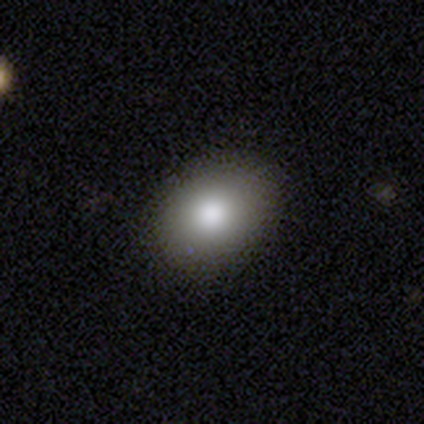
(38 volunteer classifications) smooth-or-featured: smooth: 87% | star or artifact: 8% | featured or disk: 5%
  how-rounded: in between: 61% | round: 39% | cigar-shaped: 0%
  merging: none: 66% | minor disturbance: 11% | major disturbance: 0% | merger: 0%